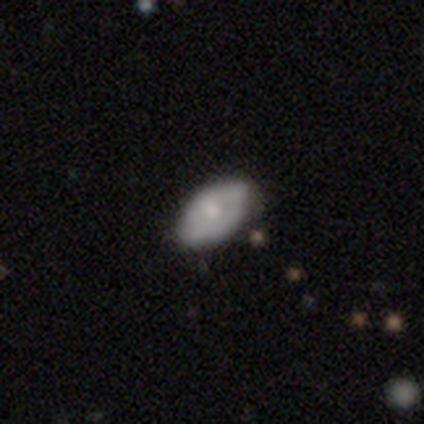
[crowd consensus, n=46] A featured or disk galaxy (57%) with no bar (85%), no spiral arms (62%) and a small central bulge (42%). Merging: none (69%).